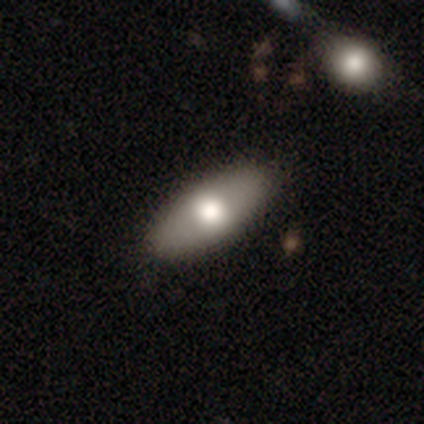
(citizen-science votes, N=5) smooth 80%, featured or disk 20%, star or artifact 0%. Down the decision tree: how rounded — in between (100%); merging — none (100%).